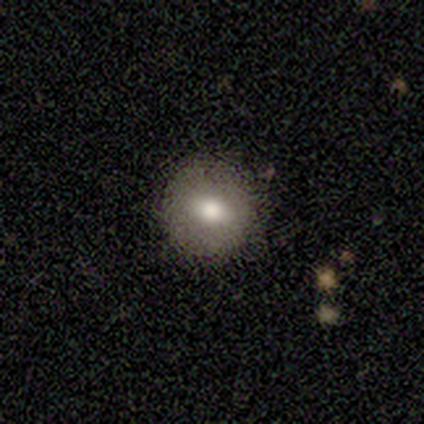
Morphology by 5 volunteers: type=smooth (100%); roundness=round (100%); merging=none (100%).